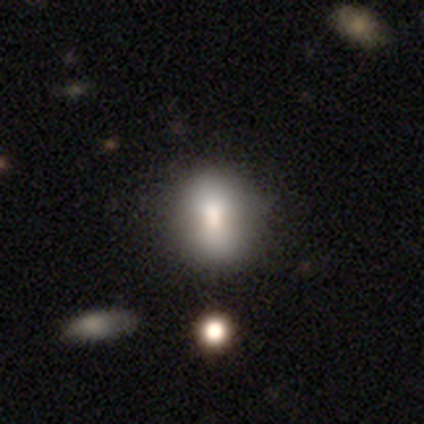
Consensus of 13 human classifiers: smooth-or-featured: smooth: 77% | featured or disk: 15% | star or artifact: 8%
  how-rounded: round: 60% | in between: 40% | cigar-shaped: 0%
  merging: none: 75% | minor disturbance: 17% | major disturbance: 8% | merger: 0%